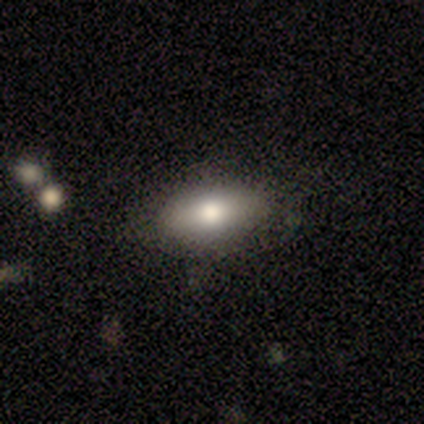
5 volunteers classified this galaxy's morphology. Smooth or featured?
  - smooth: 60% *
  - featured or disk: 40%
  - star or artifact: 0%
How rounded?
  - in between: 67% *
  - cigar-shaped: 33%
  - round: 0%
Merging?
  - none: 80% *
  - minor disturbance: 20%
  - major disturbance: 0%
  - merger: 0%